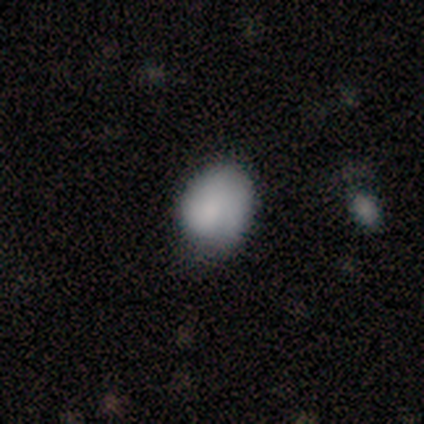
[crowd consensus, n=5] Volunteers were most divided on "merging" (2-way tie): none: 50%, minor disturbance: 50%, major disturbance: 0%, merger: 0%. More confident: how rounded — round (67%); smooth or featured — smooth (60%).